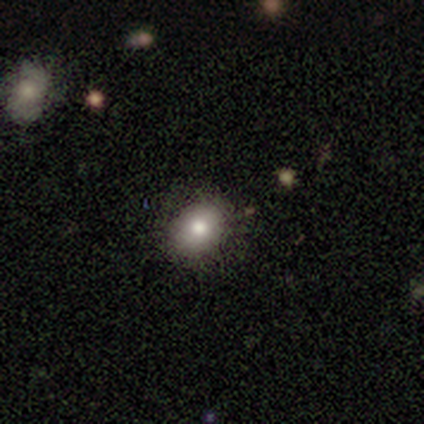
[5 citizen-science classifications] Q: Smooth or featured?
A: smooth (60%); runner-up: featured or disk (20%)
Q: How rounded?
A: round (67%); runner-up: in between (33%)
Q: Merging?
A: none (75%); runner-up: minor disturbance (25%)